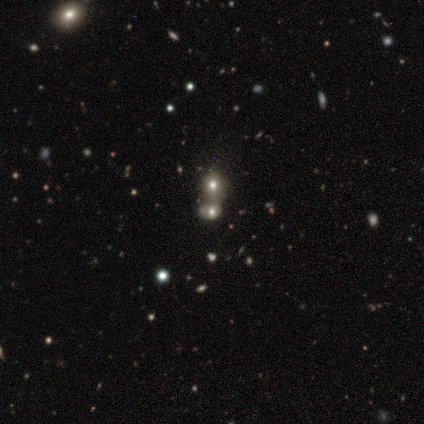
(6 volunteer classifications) This is likely a smooth galaxy (67%). How rounded: possibly round (50%, tied with in between). Merging: likely merger (75%).